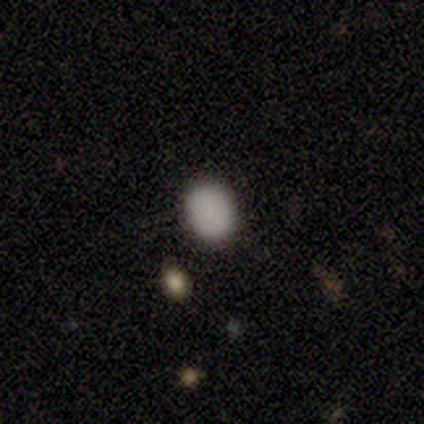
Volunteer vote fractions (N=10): A smooth galaxy with no disk features (90%) that is in between round and cigar-shaped (67%).

Vote fractions:
- Smooth or featured? smooth: 90% / star or artifact: 10% / featured or disk: 0%
- How rounded? in between: 67% / round: 33% / cigar-shaped: 0%
- Merging? none: 100% / minor disturbance: 0% / major disturbance: 0% / merger: 0%